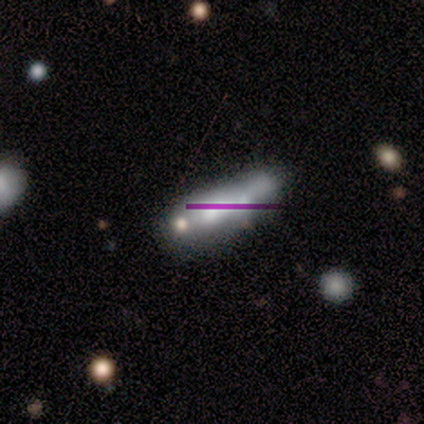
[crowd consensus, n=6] A smooth galaxy with no disk features (50%) that is cigar-shaped (67%).

Vote fractions:
- Smooth or featured? smooth: 50% / featured or disk: 33% / star or artifact: 17%
- How rounded? cigar-shaped: 67% / in between: 33% / round: 0%
- Merging? minor disturbance: 60% / none: 20% / merger: 20% / major disturbance: 0%